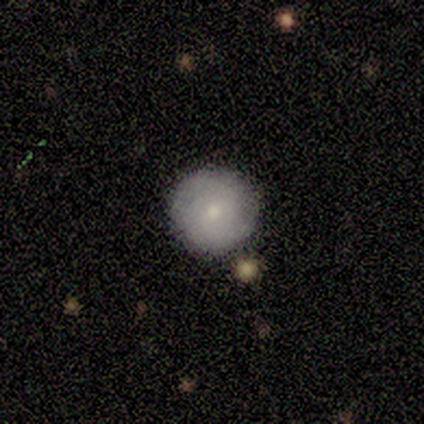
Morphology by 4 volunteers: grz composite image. It shows a smooth galaxy with no disk features (100%) that is round (100%). Merging: none (100%).